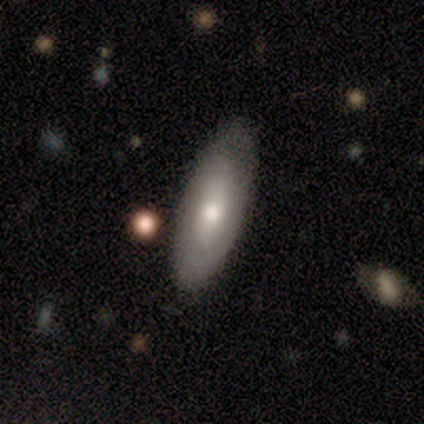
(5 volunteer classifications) Smooth or featured: smooth — 60% (featured or disk — 40%)
How rounded: in between — 100%
Merging: none — 100%